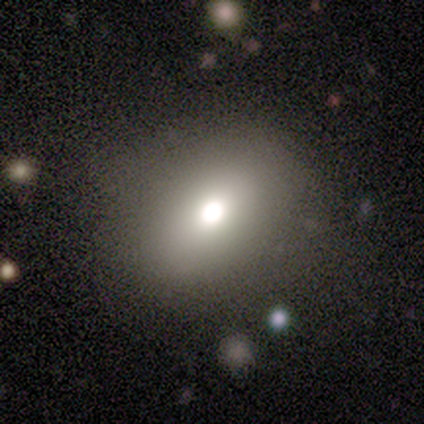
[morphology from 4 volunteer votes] Smooth or featured? smooth (75%)
How rounded? round (67%)
Merging? none (100%)